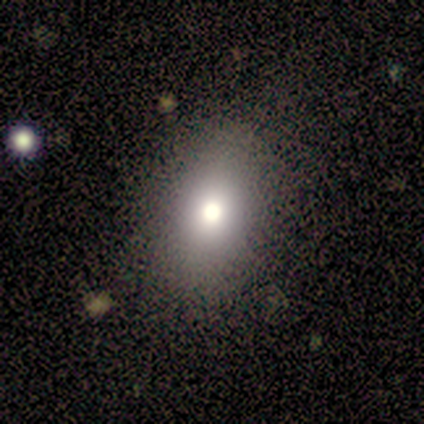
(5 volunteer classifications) This appears to be a smooth galaxy with no disk features (80%) that is in between round and cigar-shaped (100%). Merging: none (100%).